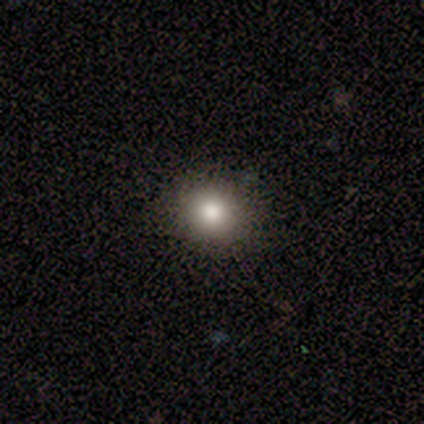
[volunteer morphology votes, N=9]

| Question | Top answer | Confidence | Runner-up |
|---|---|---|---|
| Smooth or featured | smooth | 78% | featured or disk (11%) |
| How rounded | round | 86% | in between (14%) |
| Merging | none | 88% | merger (12%) |